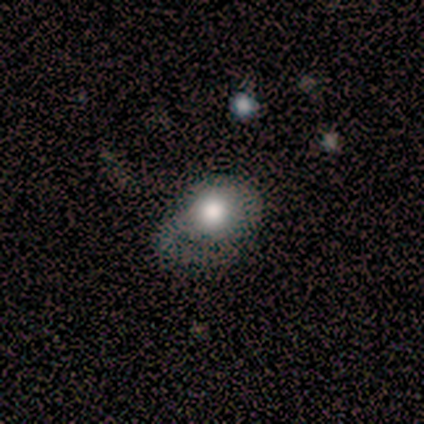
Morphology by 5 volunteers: type=smooth (80%); roundness=round (75%); merging=minor disturbance (40%, tied with major disturbance).